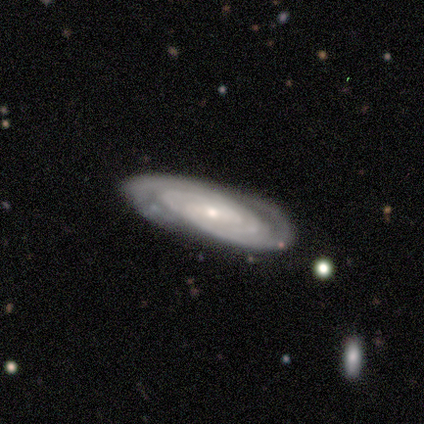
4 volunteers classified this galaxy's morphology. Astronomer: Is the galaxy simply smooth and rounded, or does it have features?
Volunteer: featured or disk — 50%.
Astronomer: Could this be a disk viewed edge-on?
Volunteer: yes — 50%, tied with no at 50%.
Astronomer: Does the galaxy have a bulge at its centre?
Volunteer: none — 100%.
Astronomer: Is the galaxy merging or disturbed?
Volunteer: none — 67%.